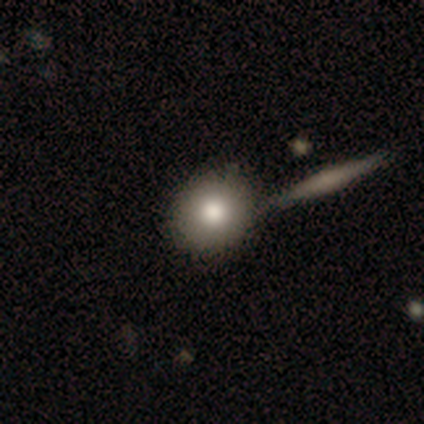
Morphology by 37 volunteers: smooth-or-featured: smooth: 84% | star or artifact: 11% | featured or disk: 5%
  how-rounded: round: 94% | in between: 6% | cigar-shaped: 0%
  merging: none: 61% | merger: 21% | minor disturbance: 15% | major disturbance: 3%